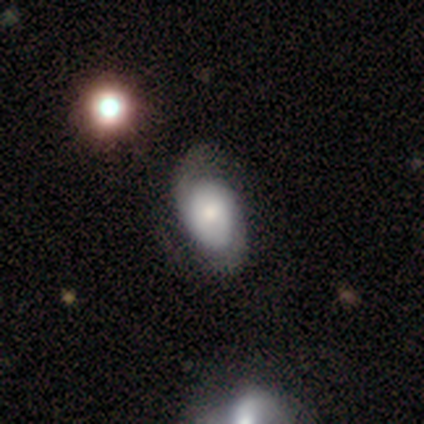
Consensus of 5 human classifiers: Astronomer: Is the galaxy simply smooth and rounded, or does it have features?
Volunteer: featured or disk — 80%.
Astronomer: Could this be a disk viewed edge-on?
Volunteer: no — 100%.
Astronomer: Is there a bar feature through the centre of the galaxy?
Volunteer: weak — 50%, tied with no at 50%.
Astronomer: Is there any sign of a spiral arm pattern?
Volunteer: yes — 100%.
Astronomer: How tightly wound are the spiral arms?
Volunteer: tight — 50%, tied with medium at 50%.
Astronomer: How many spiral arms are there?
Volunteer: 2 — 100%.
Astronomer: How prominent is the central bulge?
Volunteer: moderate — 50%, tied with small at 50%.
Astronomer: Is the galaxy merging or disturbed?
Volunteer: none — 80%.